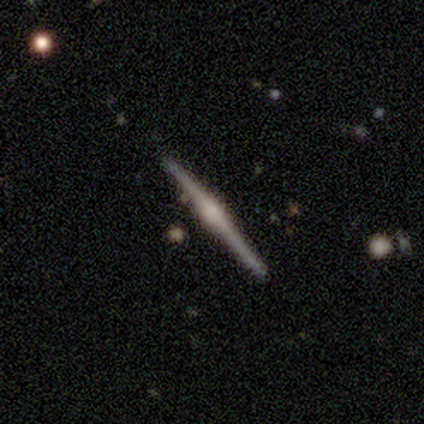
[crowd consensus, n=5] A featured or disk galaxy (60%) viewed edge-on (100%) with a rounded central bulge (67%).

Vote fractions:
- Smooth or featured? featured or disk: 60% / smooth: 20% / star or artifact: 20%
- Edge-on disk? yes: 100% / no: 0%
- Edge-on bulge? rounded: 67% / boxy: 33% / none: 0%
- Merging? none: 75% / minor disturbance: 25% / major disturbance: 0% / merger: 0%